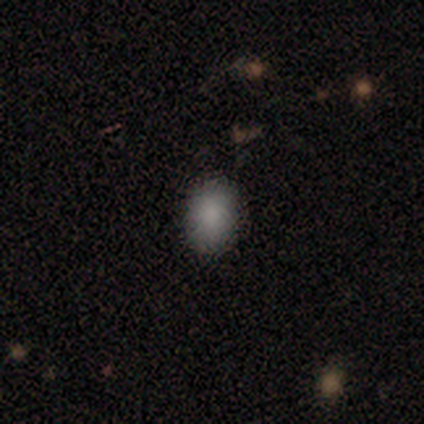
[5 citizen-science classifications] Morphology: type=smooth (80%); roundness=round (50%, tied with in between); merging=none (100%).